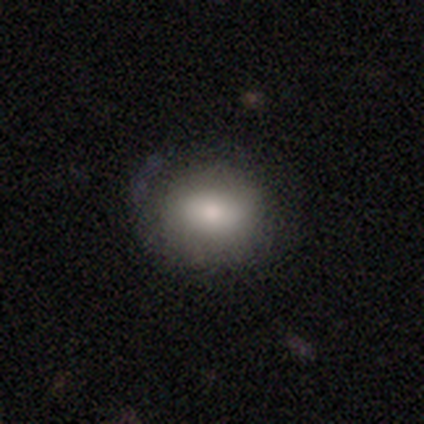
A smooth galaxy with no disk features (83%) that is in between round and cigar-shaped (51%).

Vote fractions:
- Smooth or featured? smooth: 83% / featured or disk: 11% / star or artifact: 6%
- How rounded? in between: 51% / round: 49% / cigar-shaped: 0%
- Merging? none: 75% / minor disturbance: 18% / major disturbance: 5% / merger: 1%